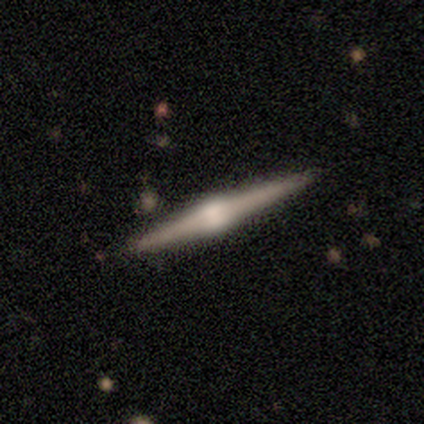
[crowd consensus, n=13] Q: Smooth or featured?
A: featured or disk (92%); runner-up: smooth (8%)
Q: Edge-on disk?
A: yes (100%)
Q: Edge-on bulge?
A: rounded (92%); runner-up: boxy (8%)
Q: Merging?
A: none (92%); runner-up: minor disturbance (8%)